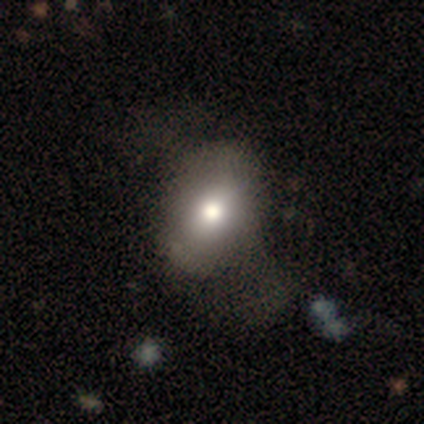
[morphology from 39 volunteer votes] Smooth or featured?
  - smooth: 72% *
  - star or artifact: 18%
  - featured or disk: 10%
How rounded?
  - in between: 79% *
  - round: 18%
  - cigar-shaped: 4%
Merging?
  - none: 50% *
  - major disturbance: 19%
  - minor disturbance: 6%
  - merger: 3%